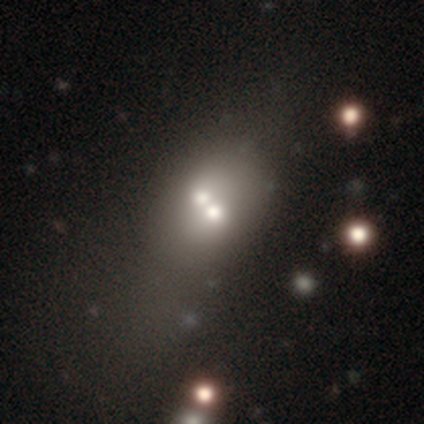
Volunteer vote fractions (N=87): Smooth or featured? 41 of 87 (47%) said featured or disk. Edge-on disk? 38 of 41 (93%) said no. Bar? 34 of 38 (89%) said no. Spiral arms? 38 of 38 (100%) said no. Bulge size? 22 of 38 (58%) said moderate. Merging? 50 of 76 (66%) said merger.